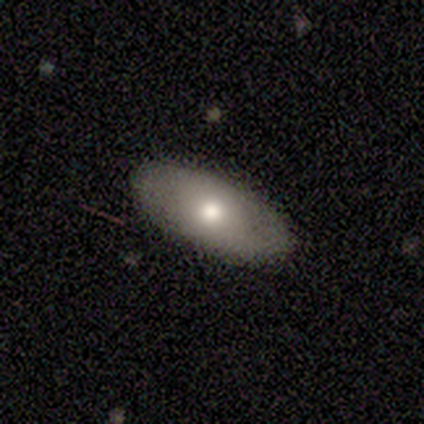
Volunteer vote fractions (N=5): Overall: featured or disk (60%; smooth 40%). Edge-on disk: no (100%). Bar: no (100%). Spiral arms: no (67%; yes 33%). Bulge size: moderate (67%; small 33%). Merging: none (100%).